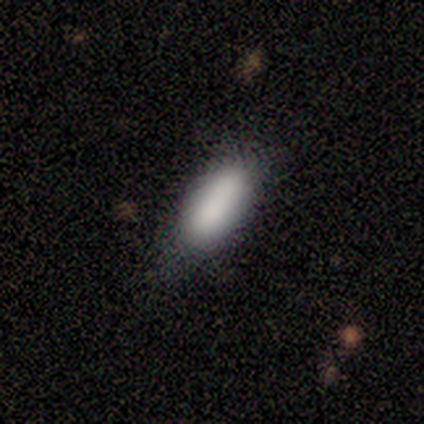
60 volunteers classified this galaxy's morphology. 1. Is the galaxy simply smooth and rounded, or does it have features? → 83% smooth, 10% featured or disk, 7% star or artifact.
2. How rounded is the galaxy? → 84% in between, 16% cigar-shaped, 0% round.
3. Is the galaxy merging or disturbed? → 55% none, 34% minor disturbance, 11% merger, 0% major disturbance.